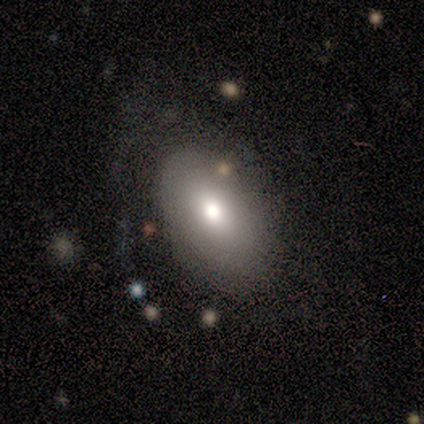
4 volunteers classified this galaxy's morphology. Smooth or featured: featured or disk — 75% (smooth — 25%)
Edge-on disk: no — 100%
Bar: no — 100%
Spiral arms: no — 67% (yes — 33%)
Bulge size: small — 67% (moderate — 33%)
Merging: none — 75% (major disturbance — 25%)